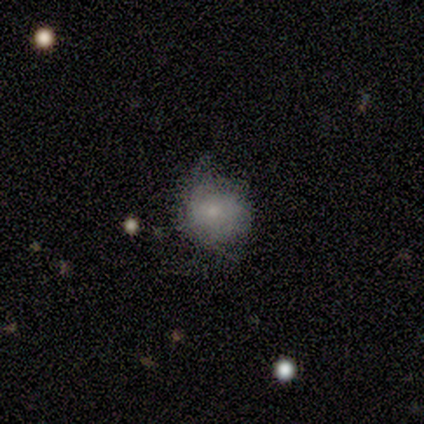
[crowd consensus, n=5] Volunteers were most divided on "spiral arms" (2-way tie): yes: 50%, no: 50%; "spiral winding" (2-way tie): tight: 50%, medium: 50%, loose: 0%. More confident: edge-on disk — no (100%); bar — no (100%); spiral arm count — can't tell (100%); smooth or featured — featured or disk (80%); bulge size — small (75%); merging — minor disturbance (60%).